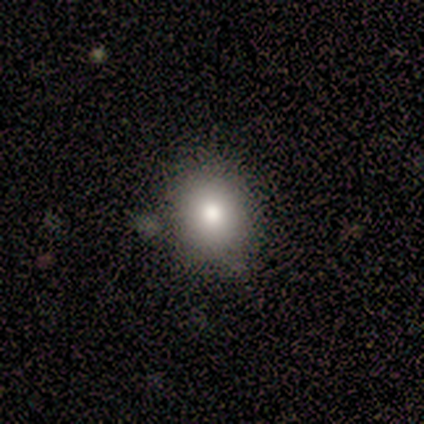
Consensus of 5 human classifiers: Smooth or featured: smooth — 80% (featured or disk — 20%)
How rounded: round — 50% (tied with in between — 50%)
Merging: none — 80% (minor disturbance — 20%)